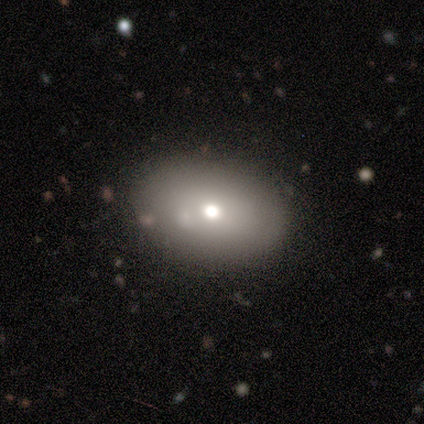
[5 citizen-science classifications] Smooth or featured?
  - smooth: 60% *
  - featured or disk: 40%
  - star or artifact: 0%
How rounded?
  - in between: 67% *
  - round: 33%
  - cigar-shaped: 0%
Merging?
  - none: 80% *
  - minor disturbance: 20%
  - major disturbance: 0%
  - merger: 0%